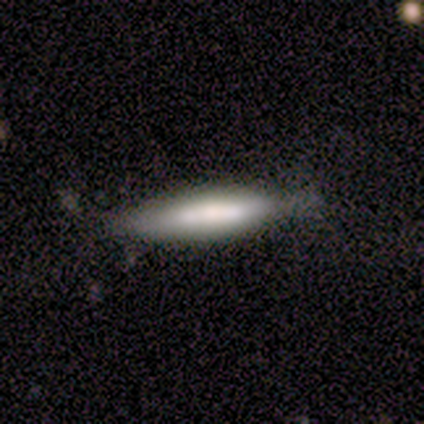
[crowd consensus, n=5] Q: Smooth or featured?
A: smooth (60%); runner-up: featured or disk (20%)
Q: How rounded?
A: cigar-shaped (100%)
Q: Merging?
A: none (75%); runner-up: major disturbance (25%)